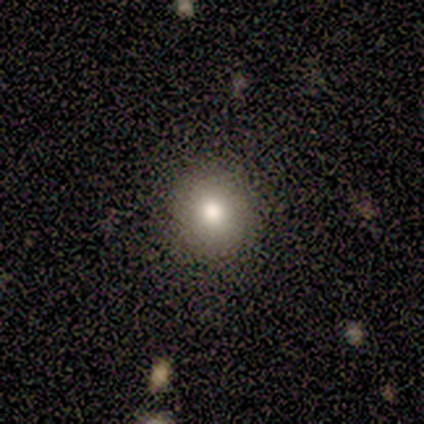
Volunteers were most divided on "smooth or featured" (2-way tie): smooth: 40%, star or artifact: 40%, featured or disk: 20%; "how rounded" (2-way tie): round: 50%, in between: 50%, cigar-shaped: 0%. More confident: merging — none (100%).